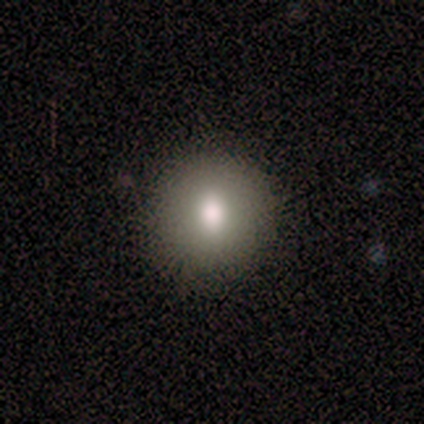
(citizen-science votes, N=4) smooth_or_featured: smooth (p=0.75) [alt: featured or disk p=0.25]
how_rounded: round (p=0.67) [alt: in between p=0.33]
merging: none (p=0.75) [alt: minor disturbance p=0.25]